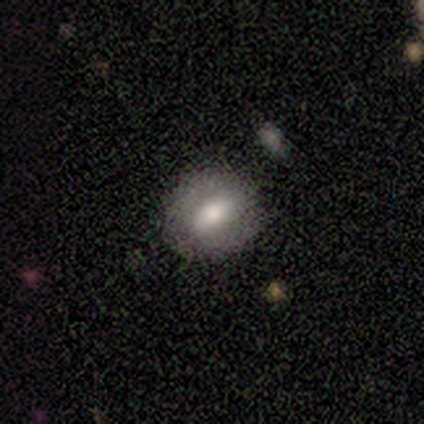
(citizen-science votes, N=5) A smooth galaxy with no disk features (60%) that is round (100%).

Vote fractions:
- Smooth or featured? smooth: 60% / featured or disk: 40% / star or artifact: 0%
- How rounded? round: 100% / in between: 0% / cigar-shaped: 0%
- Merging? none: 100% / minor disturbance: 0% / major disturbance: 0% / merger: 0%